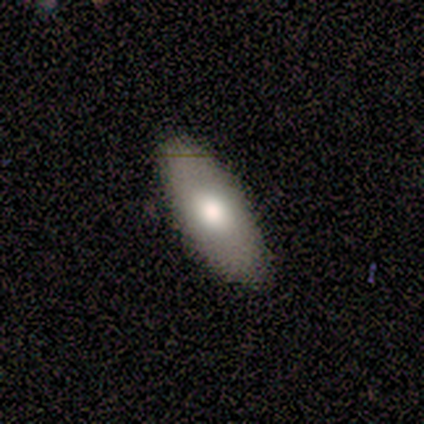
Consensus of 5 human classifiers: This is clearly a smooth galaxy (80%). How rounded: likely in between (75%). Merging: clearly none (80%).